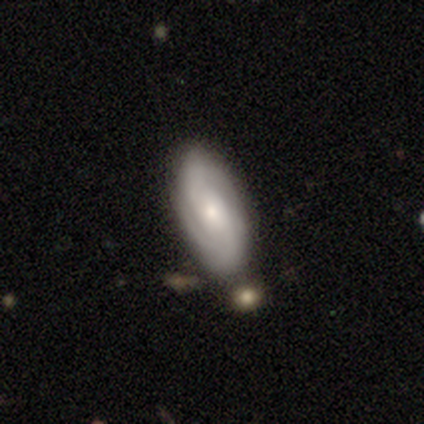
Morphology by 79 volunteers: featured or disk 63%, smooth 34%, star or artifact 3%. Down the decision tree: edge-on disk — no (92%); bar — no (61%); spiral arms — yes (91%); spiral arm count — 2 (71%); spiral winding — tight (55%); bulge size — small (50%); merging — none (44%).